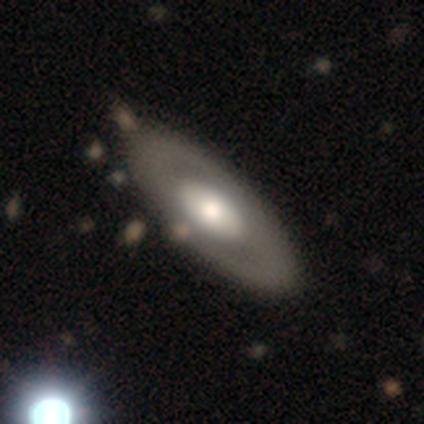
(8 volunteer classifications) Smooth or featured? featured or disk (50%)
Edge-on disk? no (100%)
Bar? no (50%)
Spiral arms? no (100%)
Bulge size? large (50%)
Merging? none (71%)